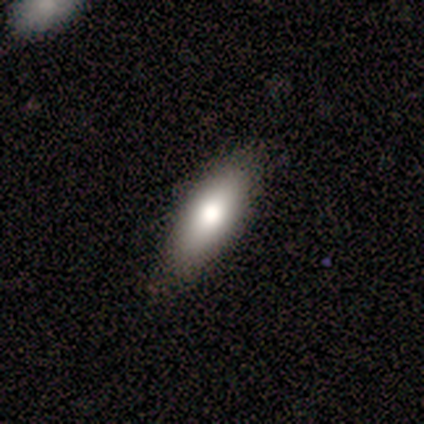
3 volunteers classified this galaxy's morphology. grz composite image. It shows a smooth galaxy with no disk features (100%) that is in between round and cigar-shaped (67%). Merging: none (67%).